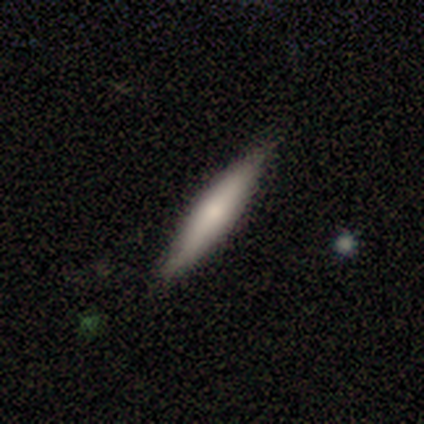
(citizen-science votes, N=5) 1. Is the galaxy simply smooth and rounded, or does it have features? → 80% smooth, 20% featured or disk, 0% star or artifact.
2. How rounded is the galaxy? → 100% cigar-shaped, 0% round, 0% in between.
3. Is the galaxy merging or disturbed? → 100% none, 0% minor disturbance, 0% major disturbance, 0% merger.